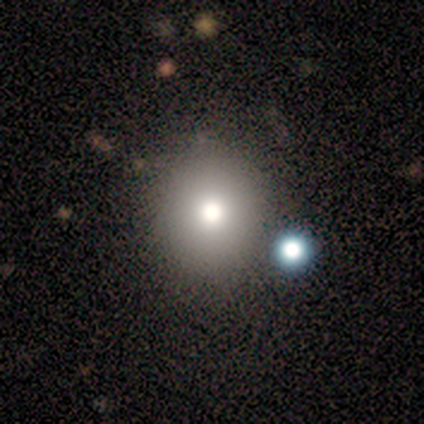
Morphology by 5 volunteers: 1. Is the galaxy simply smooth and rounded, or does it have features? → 80% smooth, 20% featured or disk, 0% star or artifact.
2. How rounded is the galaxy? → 100% round, 0% in between, 0% cigar-shaped.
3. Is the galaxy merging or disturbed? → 100% none, 0% minor disturbance, 0% major disturbance, 0% merger.